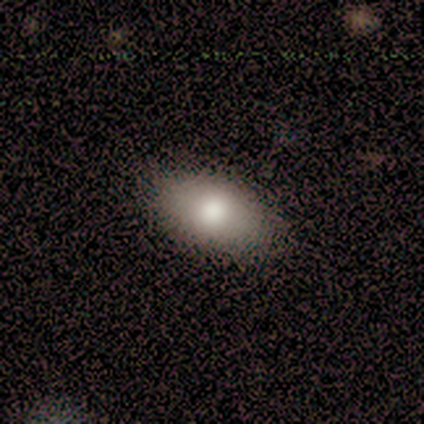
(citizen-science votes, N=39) smooth 82%, featured or disk 15%, star or artifact 3%. Down the decision tree: how rounded — in between (97%); merging — none (74%).